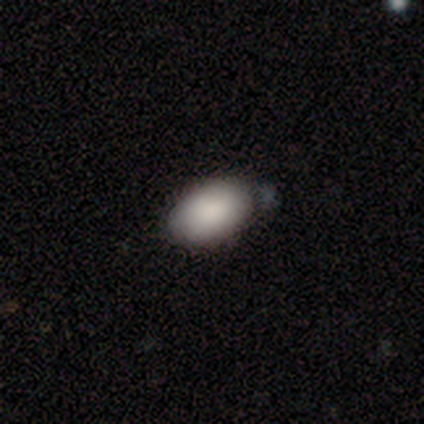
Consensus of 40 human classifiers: This appears to be a smooth galaxy with no disk features (92%) that is in between round and cigar-shaped (95%). Merging: none (41%).